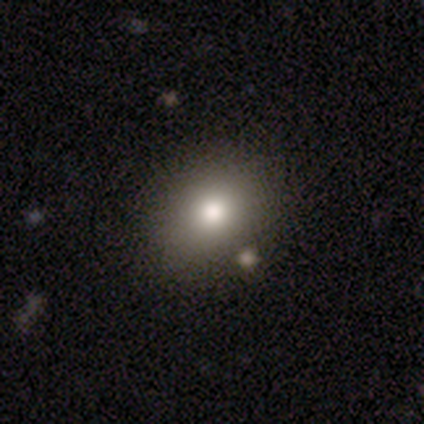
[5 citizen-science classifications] This appears to be a smooth galaxy with no disk features (80%) that is round (75%). Merging: none (75%).